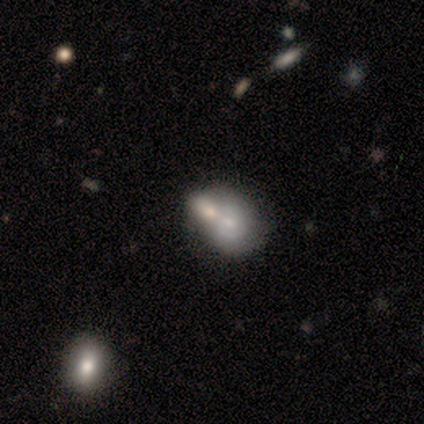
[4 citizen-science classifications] This is likely a smooth galaxy (75%). How rounded: clearly in between (100%). Merging: likely merger (75%).